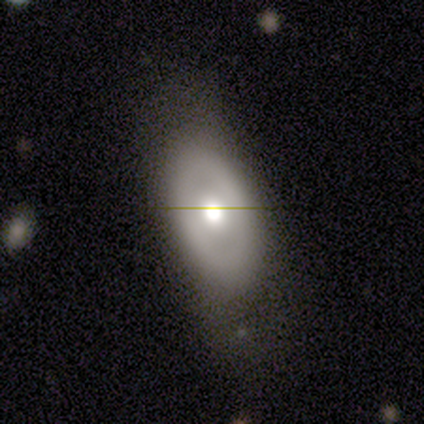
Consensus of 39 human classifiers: This is possibly a smooth galaxy (51%). How rounded: clearly in between (95%). Merging: clearly none (82%).